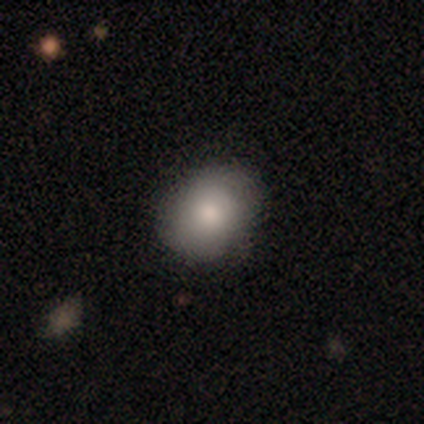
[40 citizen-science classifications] smooth 70%, featured or disk 20%, star or artifact 10%. Down the decision tree: how rounded — round (75%); merging — none (78%).